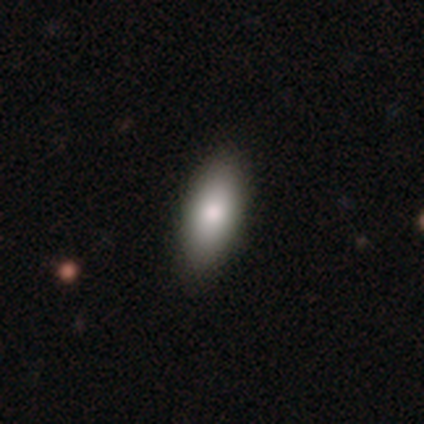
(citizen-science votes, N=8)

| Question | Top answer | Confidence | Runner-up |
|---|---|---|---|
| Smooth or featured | smooth | 100% | — |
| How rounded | in between | 100% | — |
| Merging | none | 88% | minor disturbance (12%) |